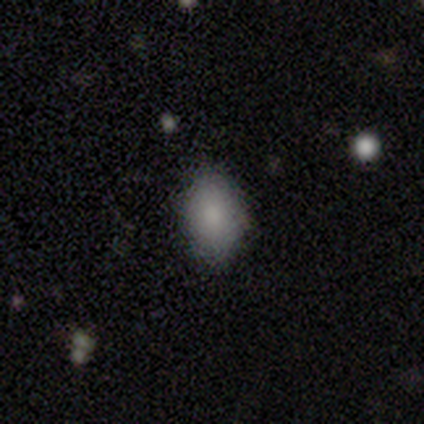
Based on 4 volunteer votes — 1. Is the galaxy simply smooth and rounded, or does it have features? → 75% smooth, 25% star or artifact, 0% featured or disk.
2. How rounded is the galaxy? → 100% in between, 0% round, 0% cigar-shaped.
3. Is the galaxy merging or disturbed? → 100% none, 0% minor disturbance, 0% major disturbance, 0% merger.